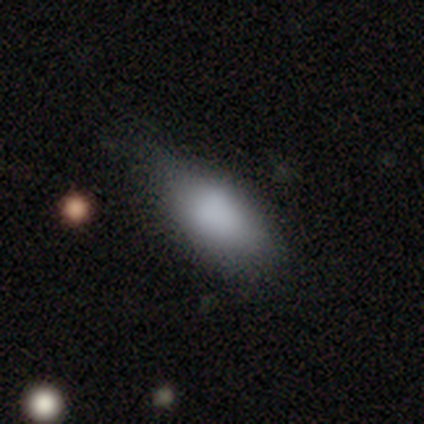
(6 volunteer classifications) smooth-or-featured: smooth: 100% | featured or disk: 0% | star or artifact: 0%
  how-rounded: in between: 100% | round: 0% | cigar-shaped: 0%
  merging: none: 50% (tied) | minor disturbance: 50% (tied) | major disturbance: 0% | merger: 0%